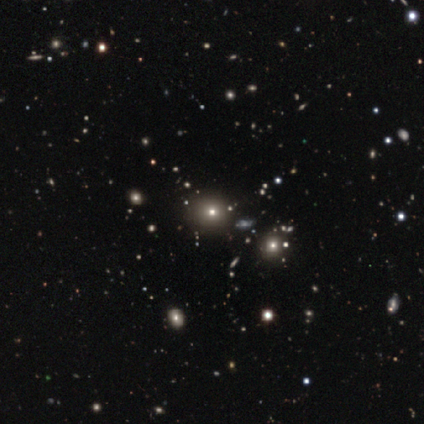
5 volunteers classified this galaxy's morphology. smooth_or_featured: star or artifact (p=0.60) [alt: smooth p=0.40]